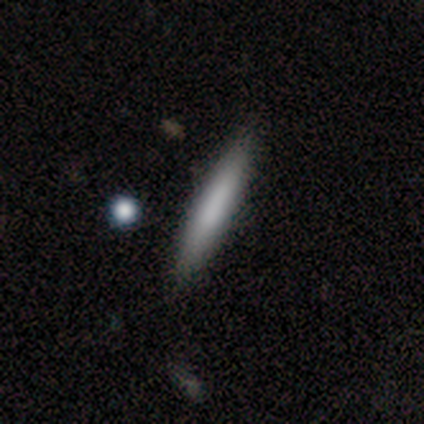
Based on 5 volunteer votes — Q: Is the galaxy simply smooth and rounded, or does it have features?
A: featured or disk — 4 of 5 (80%).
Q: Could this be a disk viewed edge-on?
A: yes — 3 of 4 (75%).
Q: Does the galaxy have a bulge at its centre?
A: none — 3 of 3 (100%).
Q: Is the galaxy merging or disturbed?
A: none — 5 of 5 (100%).